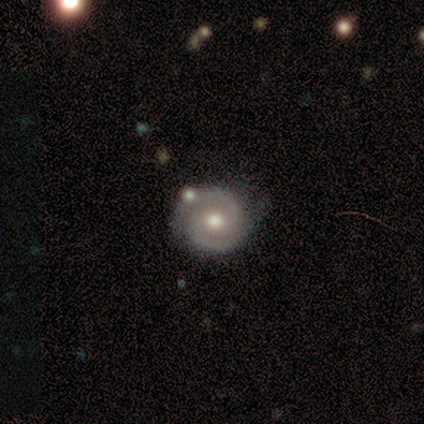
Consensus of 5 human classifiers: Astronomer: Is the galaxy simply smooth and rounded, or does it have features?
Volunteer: featured or disk — 80%.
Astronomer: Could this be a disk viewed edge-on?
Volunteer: no — 75%.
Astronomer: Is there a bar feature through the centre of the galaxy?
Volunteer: no — 67%.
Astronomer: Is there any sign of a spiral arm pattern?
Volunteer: yes — 100%.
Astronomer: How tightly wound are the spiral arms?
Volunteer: tight — 67%.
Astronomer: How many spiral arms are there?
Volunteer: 2 — 100%.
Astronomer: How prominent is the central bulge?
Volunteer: moderate — 67%.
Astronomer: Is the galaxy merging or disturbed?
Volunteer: none — 60% (runner-up: minor disturbance, 40%).